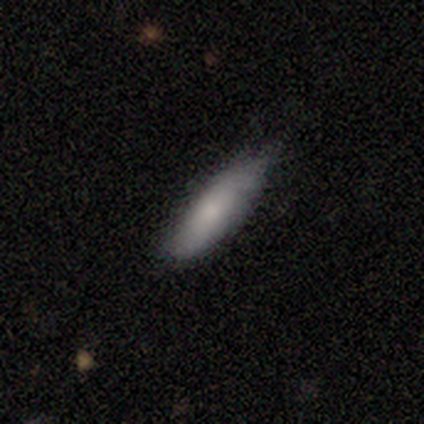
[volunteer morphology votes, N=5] Smooth or featured?
  - smooth: 80% *
  - star or artifact: 20%
  - featured or disk: 0%
How rounded?
  - cigar-shaped: 75% *
  - in between: 25%
  - round: 0%
Merging?
  - minor disturbance: 50% *
  - none: 25%
  - merger: 25%
  - major disturbance: 0%